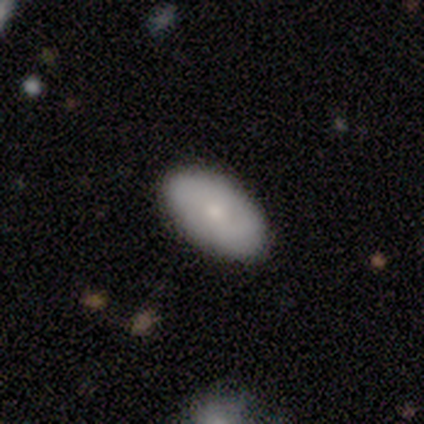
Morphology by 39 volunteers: Smooth or featured? 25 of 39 (64%) said smooth. How rounded? 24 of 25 (96%) said in between. Merging? 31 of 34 (91%) said none.